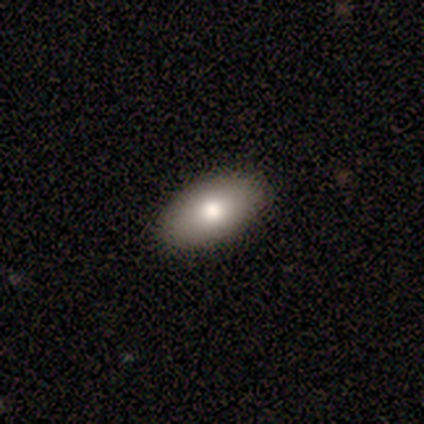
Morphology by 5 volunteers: A smooth galaxy with no disk features (80%) that is in between round and cigar-shaped (100%).

Vote fractions:
- Smooth or featured? smooth: 80% / featured or disk: 20% / star or artifact: 0%
- How rounded? in between: 100% / round: 0% / cigar-shaped: 0%
- Merging? none: 100% / minor disturbance: 0% / major disturbance: 0% / merger: 0%